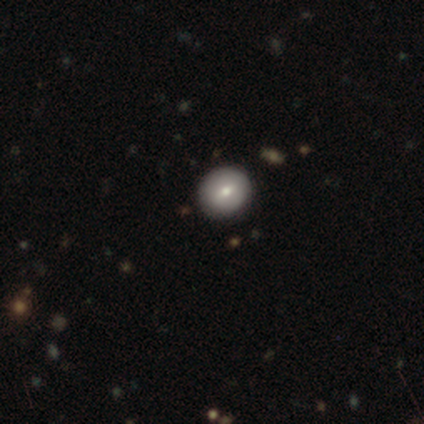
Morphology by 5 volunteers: Smooth or featured?
  - smooth: 80% *
  - featured or disk: 20%
  - star or artifact: 0%
How rounded?
  - round: 75% *
  - in between: 25%
  - cigar-shaped: 0%
Merging?
  - none: 100% *
  - minor disturbance: 0%
  - major disturbance: 0%
  - merger: 0%